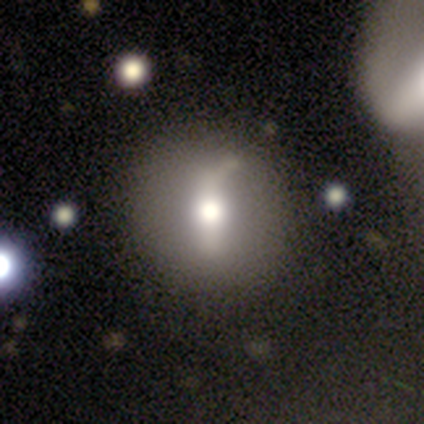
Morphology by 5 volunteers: Volunteers were most divided on "merging": none: 60%, minor disturbance: 40%, major disturbance: 0%, merger: 0%. More confident: how rounded — round (100%); smooth or featured — smooth (80%).